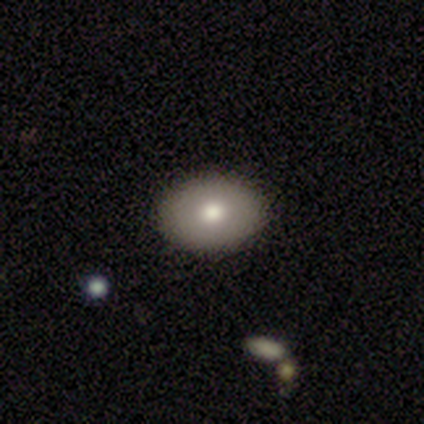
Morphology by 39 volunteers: Overall: smooth (79%). How rounded: in between (74%). Merging: none (68%).